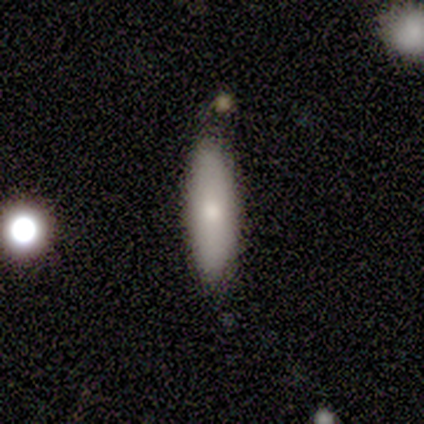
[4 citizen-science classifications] Smooth or featured: smooth — 75% (featured or disk — 25%)
How rounded: cigar-shaped — 67% (in between — 33%)
Merging: none — 75% (major disturbance — 25%)